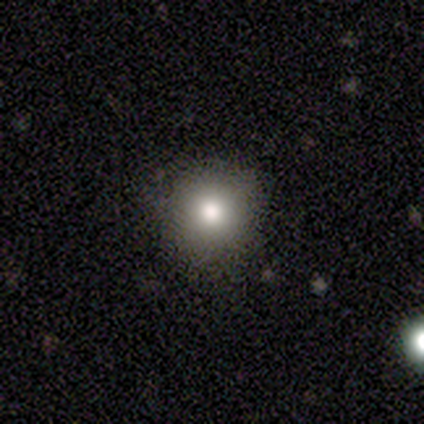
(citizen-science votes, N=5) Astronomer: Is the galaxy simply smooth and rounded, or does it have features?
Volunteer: smooth — 100%.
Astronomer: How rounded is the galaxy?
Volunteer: round — 100%.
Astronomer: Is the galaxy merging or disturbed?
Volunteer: none — 80%.